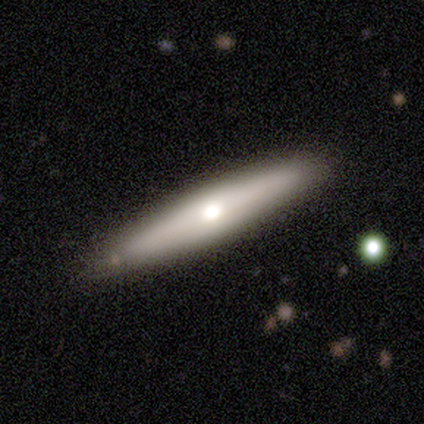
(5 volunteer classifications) A smooth galaxy with no disk features (60%) that is cigar-shaped (100%).

Vote fractions:
- Smooth or featured? smooth: 60% / featured or disk: 40% / star or artifact: 0%
- How rounded? cigar-shaped: 100% / round: 0% / in between: 0%
- Merging? none: 80% / minor disturbance: 20% / major disturbance: 0% / merger: 0%